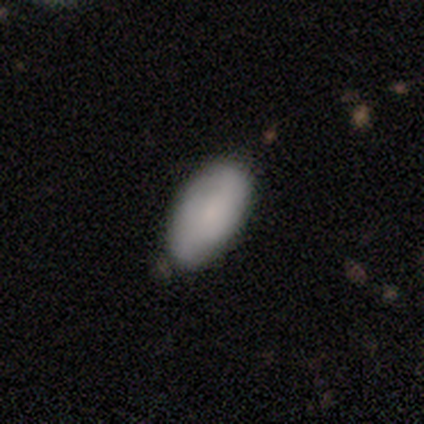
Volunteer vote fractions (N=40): Smooth or featured? 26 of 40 (65%) said smooth. How rounded? 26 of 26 (100%) said in between. Merging? 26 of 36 (72%) said none.